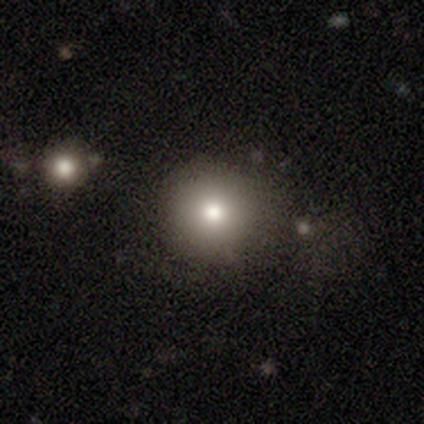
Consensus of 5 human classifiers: smooth-or-featured: smooth: 80% | featured or disk: 20% | star or artifact: 0%
  how-rounded: round: 100% | in between: 0% | cigar-shaped: 0%
  merging: none: 100% | minor disturbance: 0% | major disturbance: 0% | merger: 0%